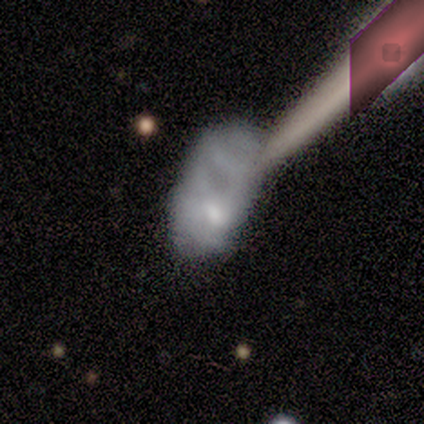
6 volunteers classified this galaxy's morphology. Volunteers were most divided on "merging" (2-way tie): major disturbance: 40%, merger: 40%, none: 20%, minor disturbance: 0%. More confident: how rounded — in between (67%); smooth or featured — smooth (50%).